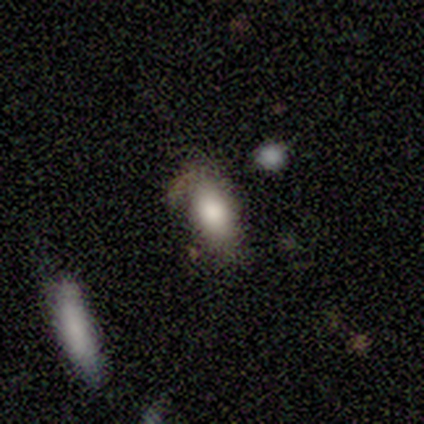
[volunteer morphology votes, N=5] Overall: smooth (100%). How rounded: in between (80%). Merging: none (40%, tied with major disturbance).